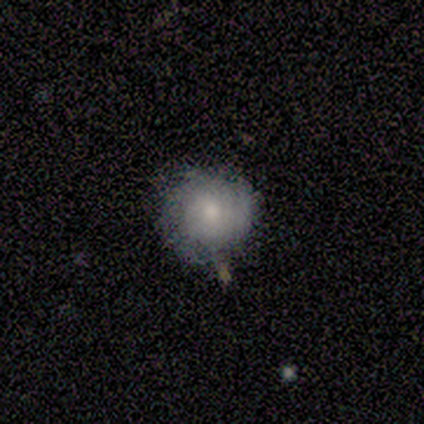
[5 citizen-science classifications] Q: Smooth or featured?
A: smooth (60%); runner-up: featured or disk (40%)
Q: How rounded?
A: round (100%)
Q: Merging?
A: none (100%)